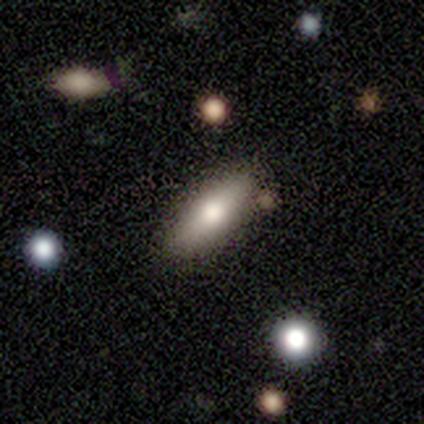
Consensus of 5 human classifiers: Smooth or featured: smooth — 80% (featured or disk — 20%)
How rounded: in between — 75% (cigar-shaped — 25%)
Merging: none — 80% (minor disturbance — 20%)